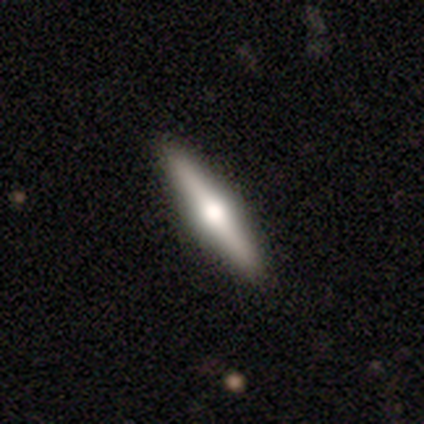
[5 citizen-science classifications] Volunteers were most divided on "smooth or featured": featured or disk: 80%, smooth: 20%, star or artifact: 0%. More confident: edge-on disk — yes (100%); edge-on bulge — rounded (100%); merging — none (100%).